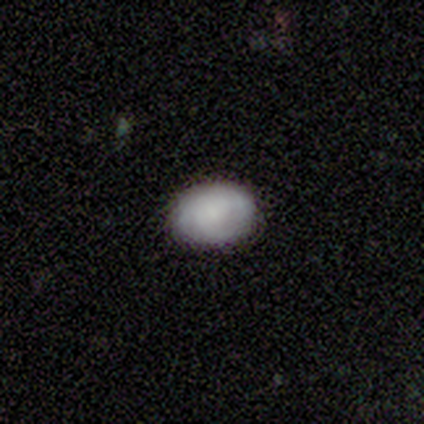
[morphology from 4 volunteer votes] Smooth or featured?
  - smooth: 75% *
  - featured or disk: 25%
  - star or artifact: 0%
How rounded?
  - in between: 100% *
  - round: 0%
  - cigar-shaped: 0%
Merging?
  - none: 100% *
  - minor disturbance: 0%
  - major disturbance: 0%
  - merger: 0%